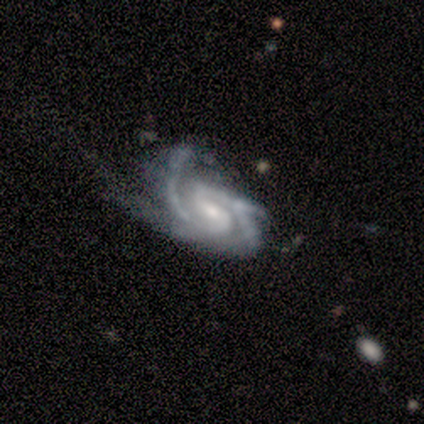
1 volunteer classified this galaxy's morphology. featured or disk 100%, smooth 0%, star or artifact 0%. Down the decision tree: edge-on disk — no (100%); bar — weak (100%); spiral arms — yes (100%); spiral arm count — 4 (100%); spiral winding — tight (100%); bulge size — small (100%); merging — minor disturbance (100%).